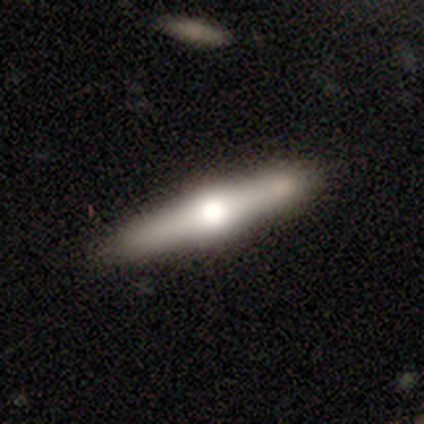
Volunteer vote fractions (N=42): Overall: featured or disk (69%). Edge-on disk: yes (97%). Edge-on bulge: rounded (93%). Merging: none (71%).